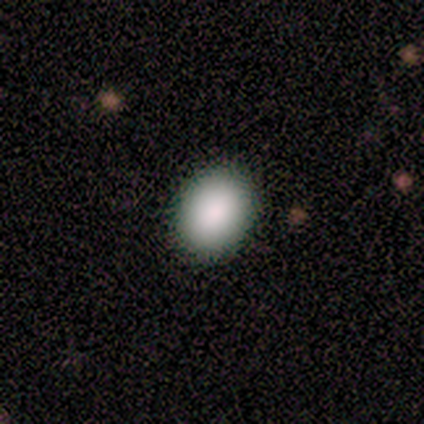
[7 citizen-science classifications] smooth 100%, featured or disk 0%, star or artifact 0%. Down the decision tree: how rounded — round (57%); merging — none (100%).